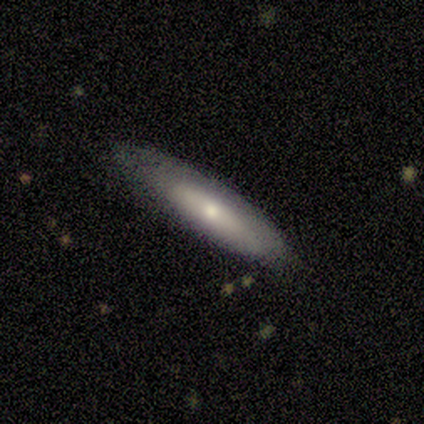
featured or disk 56%, smooth 44%, star or artifact 0%. Down the decision tree: edge-on disk — yes (60%); edge-on bulge — rounded (100%); merging — none (56%).